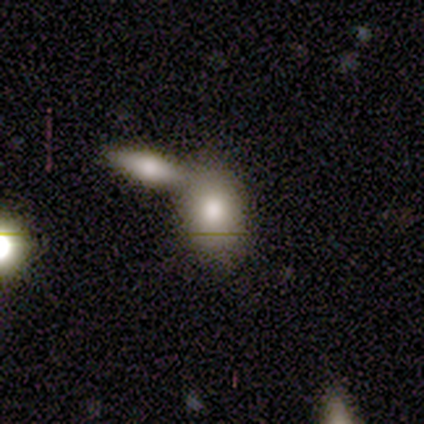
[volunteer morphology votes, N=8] Overall: smooth (88%). How rounded: in between (71%). Merging: merger (62%; none 25%).